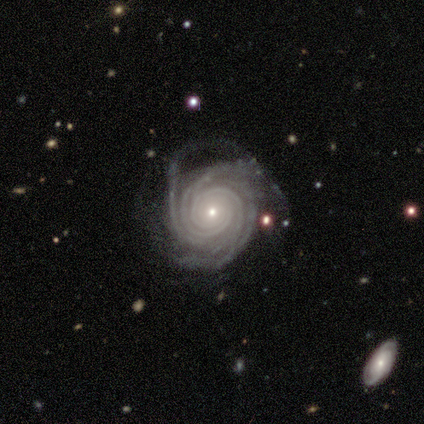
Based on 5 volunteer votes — smooth-or-featured: featured or disk: 100% | smooth: 0% | star or artifact: 0%
  disk-edge-on: no: 100% | yes: 0%
    bar: no: 100% | strong: 0% | weak: 0%
    has-spiral-arms: yes: 100% | no: 0%
      spiral-winding: tight: 100% | medium: 0% | loose: 0%
      spiral-arm-count: more than 4: 40% (tied) | can't tell: 40% (tied) | 4: 20% | 1: 0% | 2: 0% | 3: 0%
    bulge-size: small: 80% | moderate: 20% | dominant: 0% | large: 0% | none: 0%
  merging: none: 40% | minor disturbance: 20% | major disturbance: 20% | merger: 20%